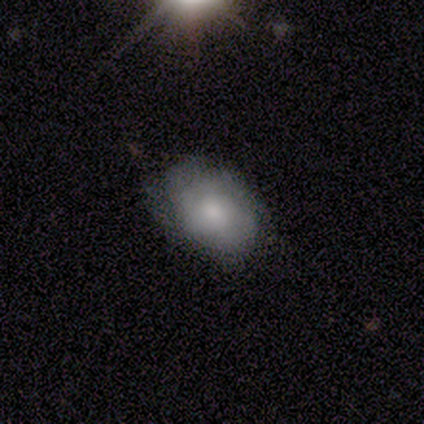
smooth-or-featured: smooth: 60% | featured or disk: 20% | star or artifact: 20%
  how-rounded: in between: 100% | round: 0% | cigar-shaped: 0%
  merging: none: 50% (tied) | minor disturbance: 50% (tied) | major disturbance: 0% | merger: 0%